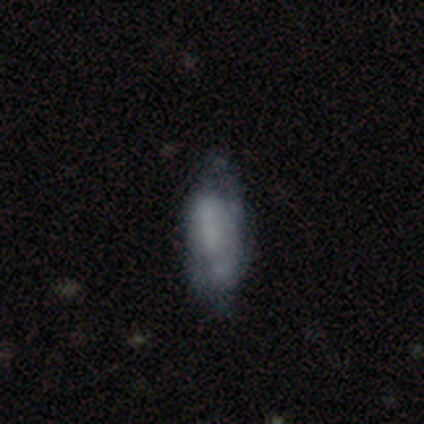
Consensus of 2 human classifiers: A smooth galaxy with no disk features (50%, tied with featured or disk) that is in between round and cigar-shaped (100%). Merging: none (50%, tied with minor disturbance).